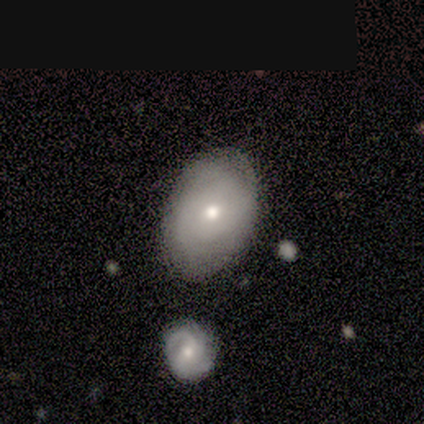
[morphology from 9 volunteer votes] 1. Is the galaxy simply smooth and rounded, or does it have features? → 89% smooth, 11% featured or disk, 0% star or artifact.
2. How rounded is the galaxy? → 88% in between, 12% round, 0% cigar-shaped.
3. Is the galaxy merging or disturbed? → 78% none, 11% minor disturbance, 11% merger, 0% major disturbance.